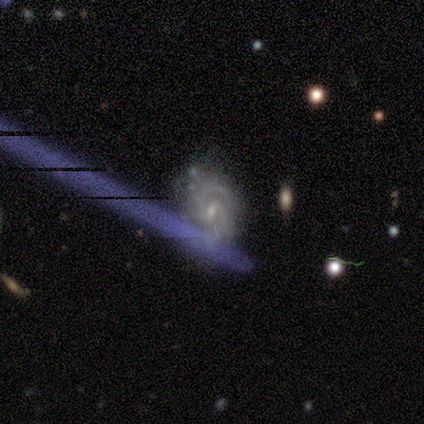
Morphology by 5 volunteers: Volunteers were most divided on "spiral arm count" (4-way tie): 2: 25%, 3: 25%, 4: 25%, can't tell: 25%, 1: 0%, more than 4: 0%. More confident: edge-on disk — no (100%); spiral arms — yes (100%); smooth or featured — featured or disk (80%); bar — no (75%); spiral winding — tight (75%); bulge size — small (75%); merging — minor disturbance (60%).